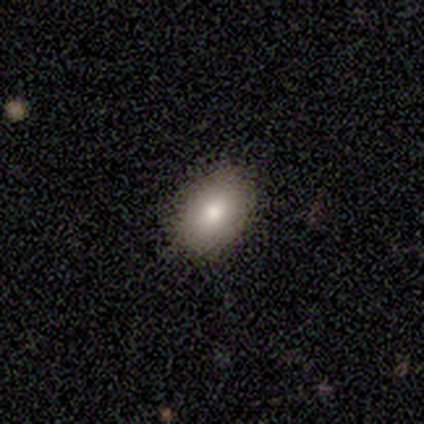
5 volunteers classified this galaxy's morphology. Smooth or featured? 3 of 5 (60%) said smooth. How rounded? 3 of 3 (100%) said in between. Merging? 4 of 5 (80%) said none.